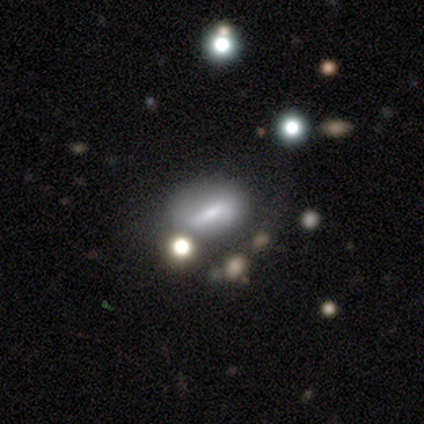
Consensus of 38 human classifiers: Smooth or featured: smooth — 68% (featured or disk — 29%)
How rounded: in between — 81% (round — 15%)
Merging: none — 49% (merger — 24%)